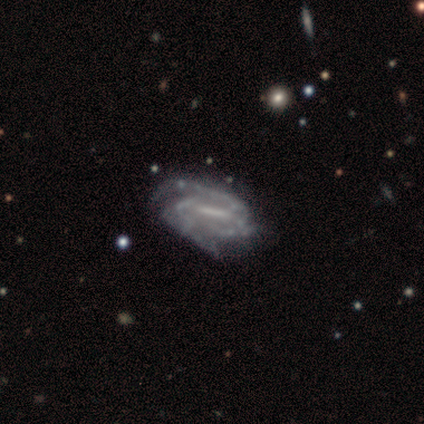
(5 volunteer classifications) Q: Smooth or featured?
A: featured or disk (100%)
Q: Edge-on disk?
A: no (100%)
Q: Bar?
A: strong (80%); runner-up: weak (20%)
Q: Spiral arms?
A: yes (100%)
Q: Spiral winding?
A: tight (60%); runner-up: medium (40%)
Q: Spiral arm count?
A: 2 (60%); runner-up: 3 (40%)
Q: Bulge size?
A: small (80%); runner-up: none (20%)
Q: Merging?
A: none (80%); runner-up: major disturbance (20%)